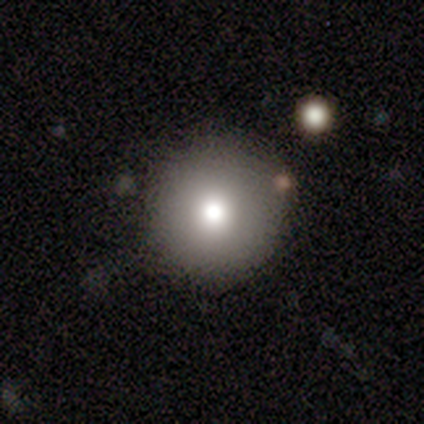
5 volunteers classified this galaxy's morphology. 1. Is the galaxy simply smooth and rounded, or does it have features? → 80% smooth, 20% star or artifact, 0% featured or disk.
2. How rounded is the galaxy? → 100% round, 0% in between, 0% cigar-shaped.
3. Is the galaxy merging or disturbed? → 75% none, 25% minor disturbance, 0% major disturbance, 0% merger.